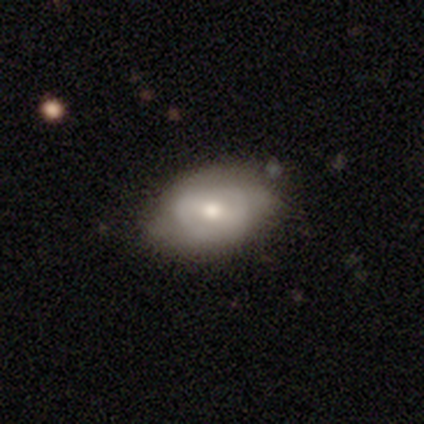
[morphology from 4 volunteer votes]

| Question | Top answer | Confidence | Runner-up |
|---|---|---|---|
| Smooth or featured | featured or disk | 75% | star or artifact (25%) |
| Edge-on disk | no | 100% | — |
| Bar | weak | 67% | no (33%) |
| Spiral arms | no | 67% | yes (33%) |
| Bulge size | moderate | 67% | small (33%) |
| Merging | none | 67% | minor disturbance (33%) |